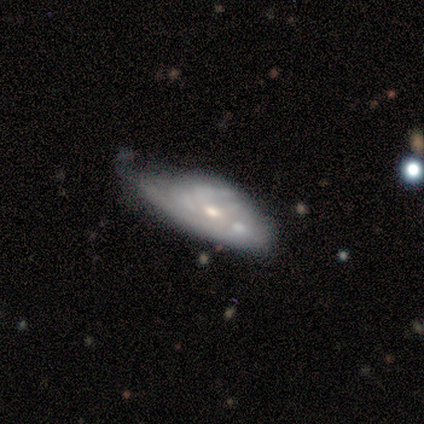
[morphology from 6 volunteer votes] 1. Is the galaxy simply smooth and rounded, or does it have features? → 83% featured or disk, 17% star or artifact, 0% smooth.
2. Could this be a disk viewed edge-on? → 80% no, 20% yes.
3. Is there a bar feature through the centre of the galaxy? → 75% no, 25% strong, 0% weak.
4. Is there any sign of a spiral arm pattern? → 75% no, 25% yes.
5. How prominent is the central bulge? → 50% moderate (tied), 50% small (tied), 0% dominant, 0% large, 0% none.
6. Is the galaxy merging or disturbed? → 60% major disturbance, 20% none, 20% merger, 0% minor disturbance.